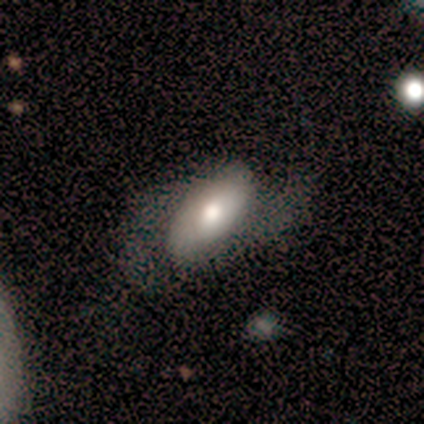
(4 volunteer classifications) This appears to be a smooth galaxy with no disk features (75%) that is in between round and cigar-shaped (100%). Merging: major disturbance (50%).